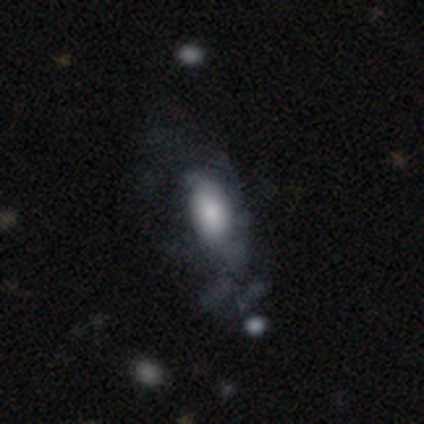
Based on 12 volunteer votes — Morphology: type=featured or disk (50%); edge-on=no (100%); bar=no (83%); spiral arms=no (67%); bulge=large (33%, tied with small); merging=major disturbance (45%).